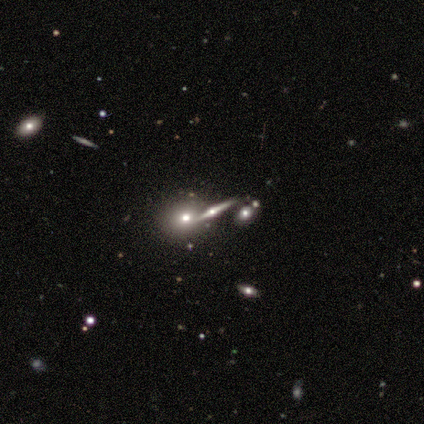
A smooth galaxy with no disk features (33%, tied with featured or disk and star or artifact) that is round (75%).

Vote fractions:
- Smooth or featured? smooth: 33% (tied) / featured or disk: 33% (tied) / star or artifact: 33% (tied)
- How rounded? round: 75% / in between: 25% / cigar-shaped: 0%
- Merging? none: 100% / minor disturbance: 0% / major disturbance: 0% / merger: 0%